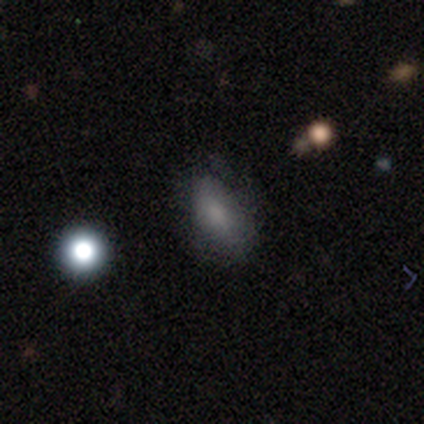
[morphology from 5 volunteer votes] smooth-or-featured: smooth: 80% | featured or disk: 20% | star or artifact: 0%
  how-rounded: in between: 100% | round: 0% | cigar-shaped: 0%
  merging: none: 100% | minor disturbance: 0% | major disturbance: 0% | merger: 0%